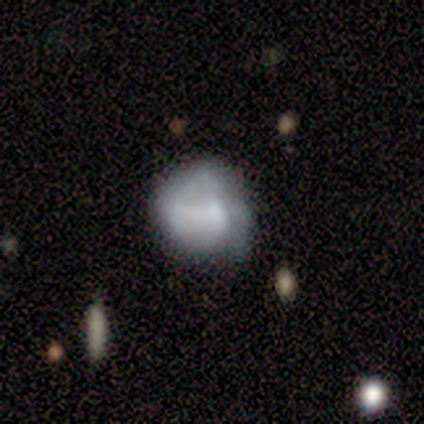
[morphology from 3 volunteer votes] Volunteers were most divided on "bulge size" (2-way tie): small: 50%, none: 50%, dominant: 0%, large: 0%, moderate: 0%; "merging" (3-way tie): none: 33%, minor disturbance: 33%, major disturbance: 33%, merger: 0%. More confident: edge-on disk — no (100%); bar — no (100%); spiral arms — no (100%); smooth or featured — featured or disk (67%).